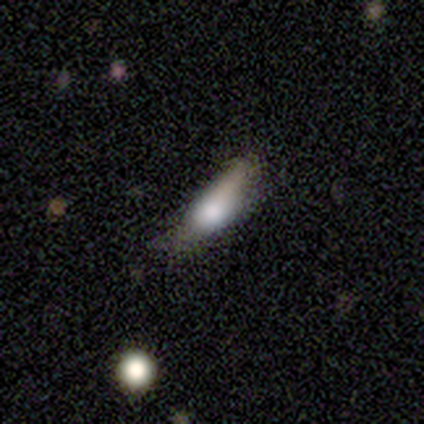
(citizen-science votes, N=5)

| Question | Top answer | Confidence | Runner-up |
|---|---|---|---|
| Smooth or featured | smooth | 100% | — |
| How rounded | cigar-shaped | 60% | in between (40%) |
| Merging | minor disturbance | 40% | tied: major disturbance (40%) |